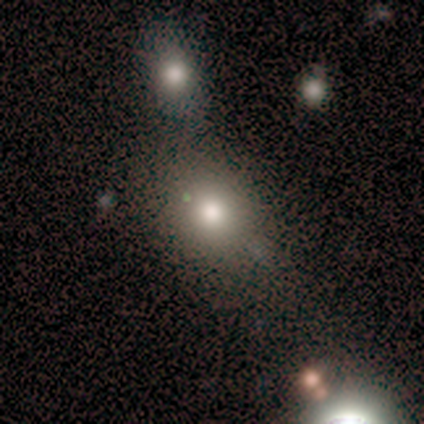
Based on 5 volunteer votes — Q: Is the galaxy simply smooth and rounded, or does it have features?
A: featured or disk — 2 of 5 (40%, tied with star or artifact).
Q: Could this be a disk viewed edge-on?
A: no — 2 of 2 (100%).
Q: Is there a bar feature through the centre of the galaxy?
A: strong — 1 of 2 (50%, tied with no).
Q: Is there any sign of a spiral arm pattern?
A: yes — 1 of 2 (50%, tied with no).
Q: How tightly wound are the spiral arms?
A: medium — 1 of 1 (100%).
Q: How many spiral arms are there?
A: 3 — 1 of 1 (100%).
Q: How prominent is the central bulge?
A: moderate — 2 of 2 (100%).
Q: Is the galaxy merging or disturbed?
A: none — 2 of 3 (67%).